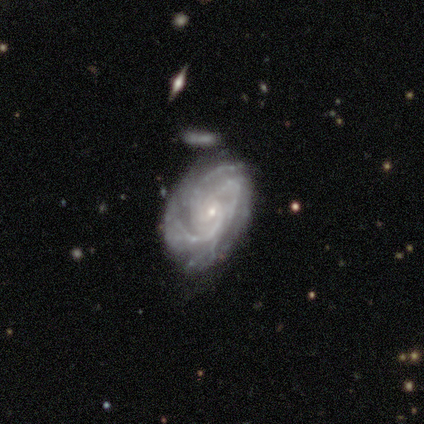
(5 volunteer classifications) Q: Smooth or featured?
A: featured or disk (100%)
Q: Edge-on disk?
A: no (100%)
Q: Bar?
A: weak (60%); runner-up: no (40%)
Q: Spiral arms?
A: yes (100%)
Q: Spiral winding?
A: tight (80%); runner-up: medium (20%)
Q: Spiral arm count?
A: 3 (100%)
Q: Bulge size?
A: small (100%)
Q: Merging?
A: none (80%); runner-up: minor disturbance (20%)